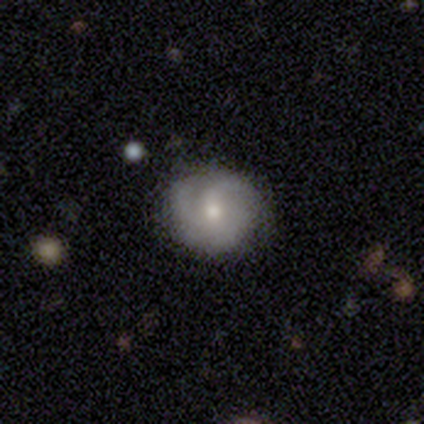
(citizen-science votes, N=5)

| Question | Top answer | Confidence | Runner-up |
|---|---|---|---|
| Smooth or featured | featured or disk | 100% | — |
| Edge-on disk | no | 100% | — |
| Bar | no | 60% | weak (40%) |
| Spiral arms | yes | 100% | — |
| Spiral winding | medium | 60% | tight (40%) |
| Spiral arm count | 3 | 60% | 2 (20%) |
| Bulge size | moderate | 100% | — |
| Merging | none | 80% | minor disturbance (20%) |